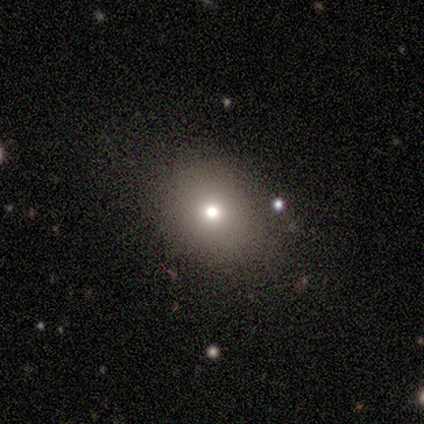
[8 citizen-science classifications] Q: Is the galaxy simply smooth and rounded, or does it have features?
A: featured or disk — 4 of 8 (50%).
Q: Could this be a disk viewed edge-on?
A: no — 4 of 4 (100%).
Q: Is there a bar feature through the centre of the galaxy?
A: no — 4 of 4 (100%).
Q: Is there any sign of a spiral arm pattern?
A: no — 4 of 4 (100%).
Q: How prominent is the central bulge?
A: moderate — 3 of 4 (75%).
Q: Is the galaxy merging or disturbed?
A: none — 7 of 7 (100%).